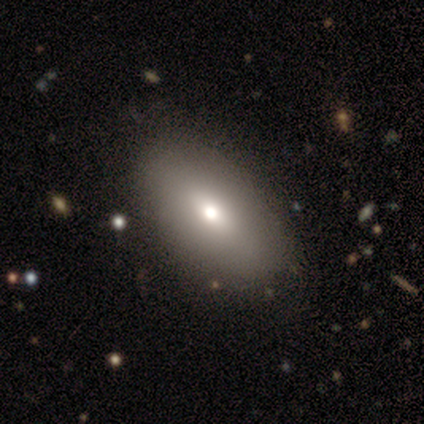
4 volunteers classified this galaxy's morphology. This is likely a smooth galaxy (75%). How rounded: clearly in between (100%). Merging: clearly none (100%).